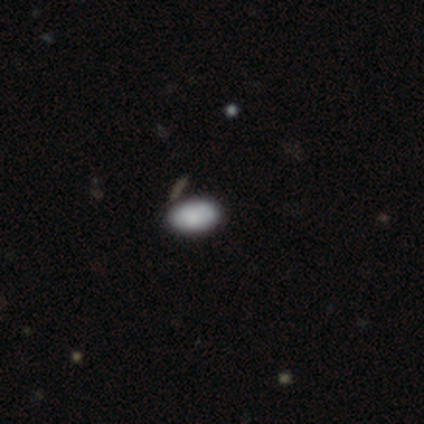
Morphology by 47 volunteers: This appears to be a smooth galaxy with no disk features (77%) that is in between round and cigar-shaped (97%). Merging: none (85%).